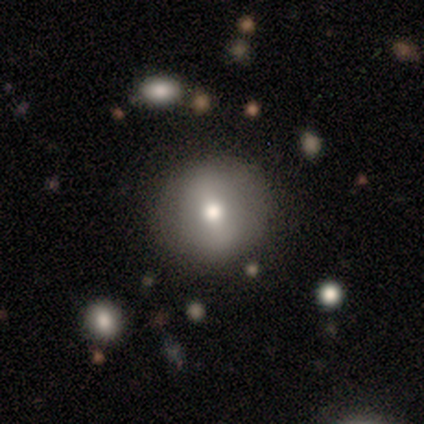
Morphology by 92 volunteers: A smooth galaxy with no disk features (53%) that is round (92%).

Vote fractions:
- Smooth or featured? smooth: 53% / featured or disk: 29% / star or artifact: 17%
- How rounded? round: 92% / in between: 8% / cigar-shaped: 0%
- Merging? none: 88% / minor disturbance: 9% / merger: 3% / major disturbance: 0%